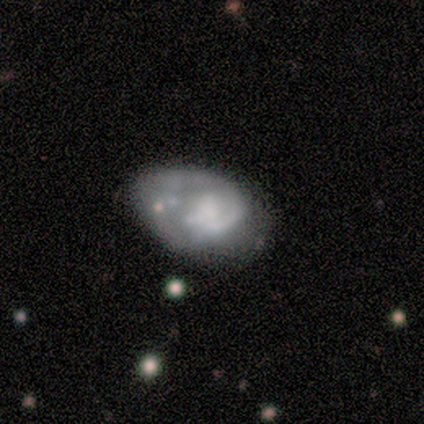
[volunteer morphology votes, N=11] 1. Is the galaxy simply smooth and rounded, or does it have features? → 82% featured or disk, 18% smooth, 0% star or artifact.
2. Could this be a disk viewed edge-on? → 89% no, 11% yes.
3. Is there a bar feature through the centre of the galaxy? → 88% no, 12% weak, 0% strong.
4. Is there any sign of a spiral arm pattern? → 75% no, 25% yes.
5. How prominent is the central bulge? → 62% none, 25% moderate, 12% small, 0% dominant, 0% large.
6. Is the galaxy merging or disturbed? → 55% minor disturbance, 27% major disturbance, 18% none, 0% merger.